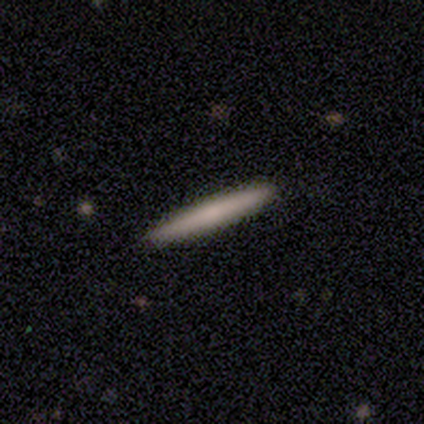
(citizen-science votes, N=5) Overall: smooth (100%). How rounded: cigar-shaped (100%). Merging: none (80%).